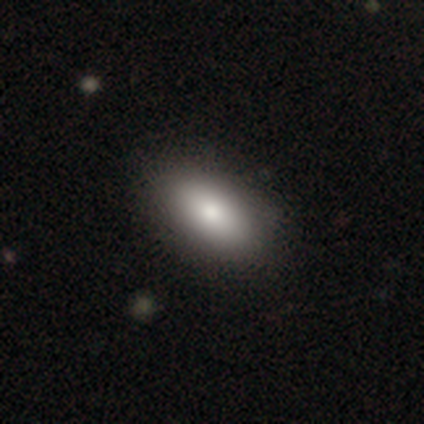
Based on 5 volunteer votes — Smooth or featured? smooth (100%)
How rounded? in between (100%)
Merging? none (100%)